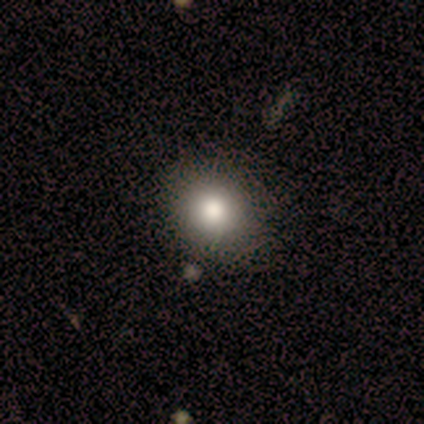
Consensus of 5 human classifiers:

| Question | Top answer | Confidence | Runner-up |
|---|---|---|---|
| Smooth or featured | smooth | 100% | — |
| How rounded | round | 60% | in between (40%) |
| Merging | none | 100% | — |